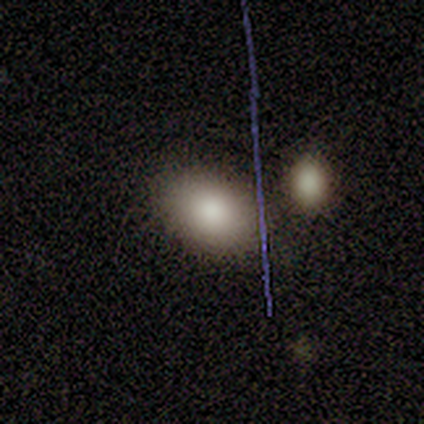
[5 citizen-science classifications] smooth 80%, featured or disk 20%, star or artifact 0%. Down the decision tree: how rounded — in between (100%); merging — none (100%).